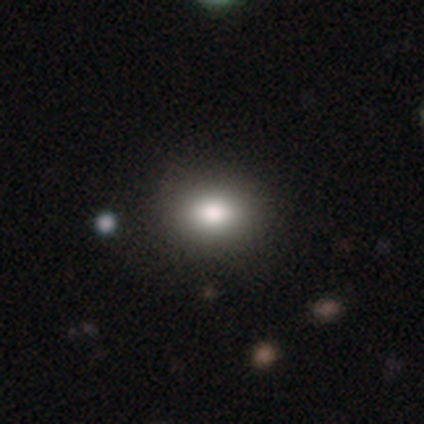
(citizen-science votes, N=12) Smooth or featured? 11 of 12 (92%) said smooth. How rounded? 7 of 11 (64%) said round. Merging? 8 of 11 (73%) said none.